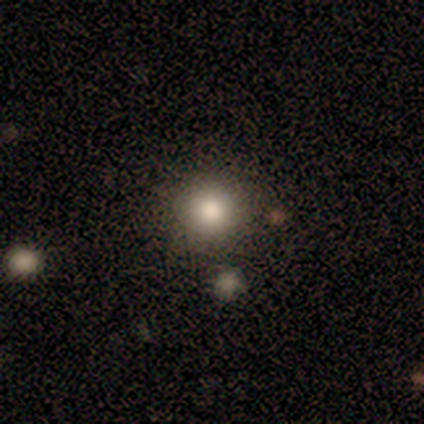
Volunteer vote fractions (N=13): Q: Smooth or featured?
A: smooth (62%); runner-up: star or artifact (31%)
Q: How rounded?
A: round (100%)
Q: Merging?
A: none (100%)